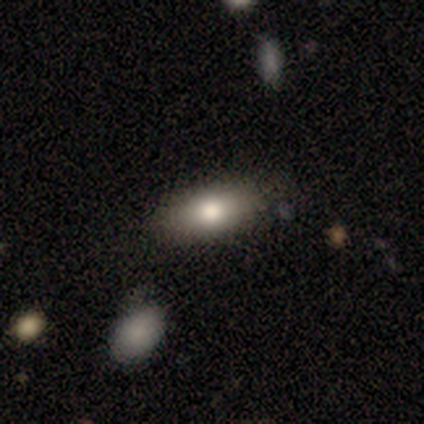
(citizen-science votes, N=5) Smooth or featured?
  - smooth: 80% *
  - featured or disk: 20%
  - star or artifact: 0%
How rounded?
  - in between: 100% *
  - round: 0%
  - cigar-shaped: 0%
Merging?
  - none: 80% *
  - minor disturbance: 20%
  - major disturbance: 0%
  - merger: 0%